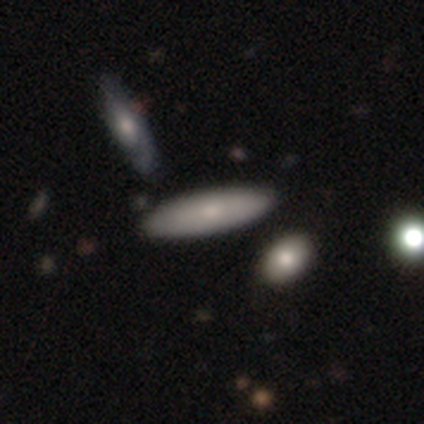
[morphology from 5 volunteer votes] type=featured or disk (60%); edge-on=no (67%); bar=no (100%); spiral arms=no (100%); bulge=small (100%); merging=none (100%).